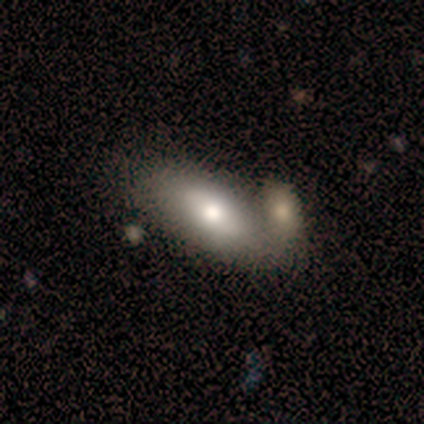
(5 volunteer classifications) smooth_or_featured: smooth (p=1.00)
how_rounded: in between (p=1.00)
merging: merger (p=0.60) [alt: none p=0.20]